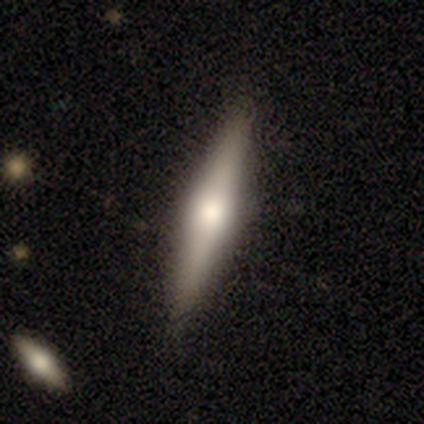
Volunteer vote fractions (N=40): Smooth or featured? 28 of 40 (70%) said featured or disk. Edge-on disk? 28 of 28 (100%) said yes. Edge-on bulge? 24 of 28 (86%) said rounded. Merging? 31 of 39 (79%) said none.